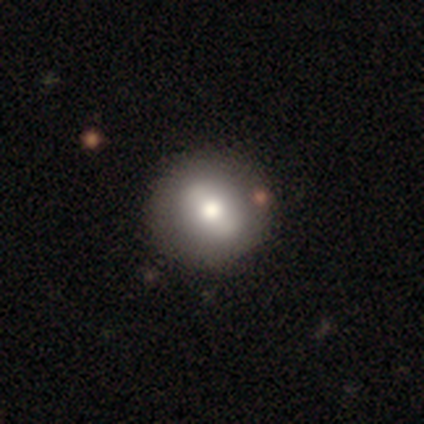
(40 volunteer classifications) smooth 62%, featured or disk 32%, star or artifact 5%. Down the decision tree: how rounded — round (88%); merging — none (58%).